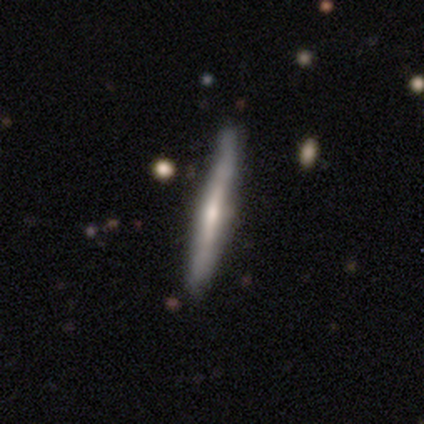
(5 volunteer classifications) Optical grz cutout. It shows a featured or disk galaxy (80%) viewed edge-on (100%) with a rounded central bulge (75%). Merging: none (80%).